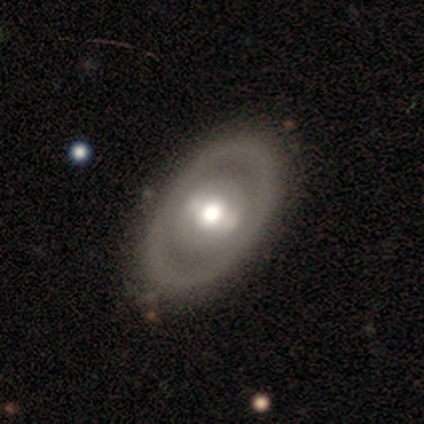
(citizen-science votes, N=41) Overall: featured or disk (68%; smooth 29%). Edge-on disk: no (93%). Bar: strong (38%, tied with no). Spiral arms: no (77%). Bulge size: moderate (85%). Merging: none (88%).